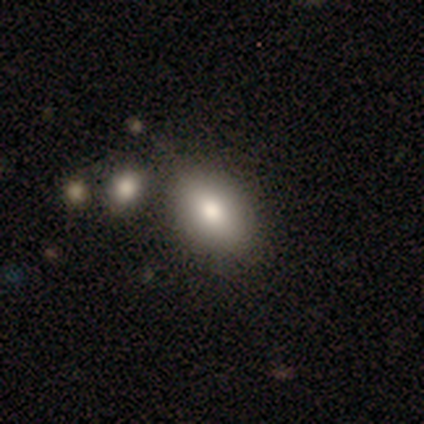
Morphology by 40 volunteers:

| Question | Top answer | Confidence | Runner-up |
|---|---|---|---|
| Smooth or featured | smooth | 72% | featured or disk (22%) |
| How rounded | in between | 66% | round (24%) |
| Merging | none | 71% | minor disturbance (18%) |